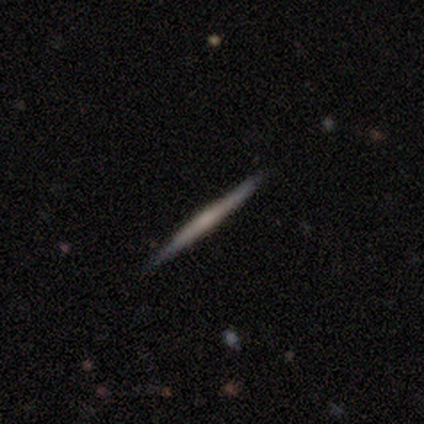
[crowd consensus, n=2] Smooth or featured? 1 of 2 (50%, tied with featured or disk) said smooth. How rounded? 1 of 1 (100%) said cigar-shaped. Merging? 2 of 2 (100%) said none.